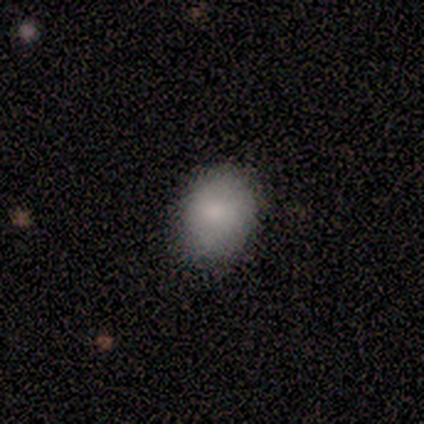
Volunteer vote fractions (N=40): This is clearly a smooth galaxy (92%). How rounded: possibly round (51%). Merging: likely none (69%).